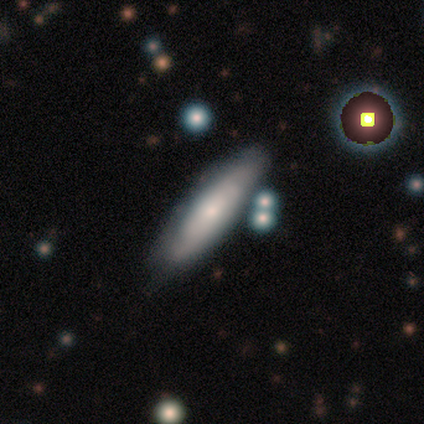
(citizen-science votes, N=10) smooth_or_featured: featured or disk (p=0.60) [alt: smooth p=0.30]
disk_edge_on: yes (p=0.83) [alt: no p=0.17]
edge_on_bulge: none (p=0.60) [alt: rounded p=0.40]
merging: none (p=0.89) [alt: minor disturbance p=0.11]